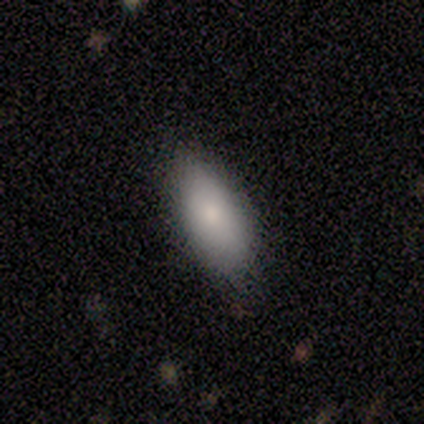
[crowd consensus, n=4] Volunteers were most divided on "merging" (2-way tie): none: 50%, minor disturbance: 50%, major disturbance: 0%, merger: 0%. More confident: smooth or featured — smooth (100%); how rounded — in between (100%).